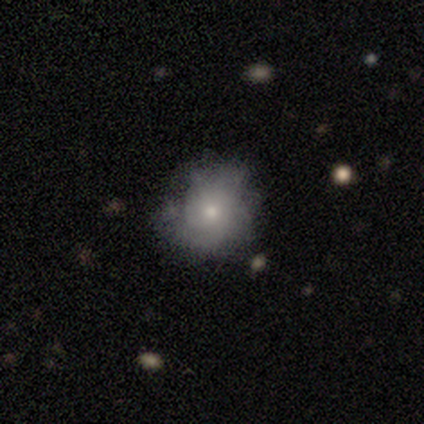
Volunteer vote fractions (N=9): featured or disk 56%, smooth 33%, star or artifact 11%. Down the decision tree: edge-on disk — no (100%); bar — no (100%); spiral arms — yes (80%); spiral arm count — can't tell (100%); spiral winding — tight (75%); bulge size — moderate (60%); merging — none (75%).